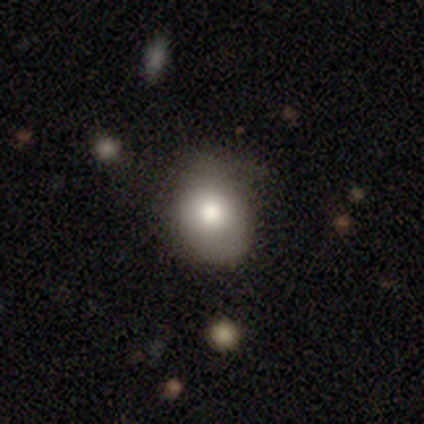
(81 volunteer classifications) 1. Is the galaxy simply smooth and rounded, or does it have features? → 72% smooth, 17% featured or disk, 11% star or artifact.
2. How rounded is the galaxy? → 57% round, 41% in between, 2% cigar-shaped.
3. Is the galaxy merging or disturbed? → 35% none, 19% minor disturbance, 10% major disturbance, 1% merger.